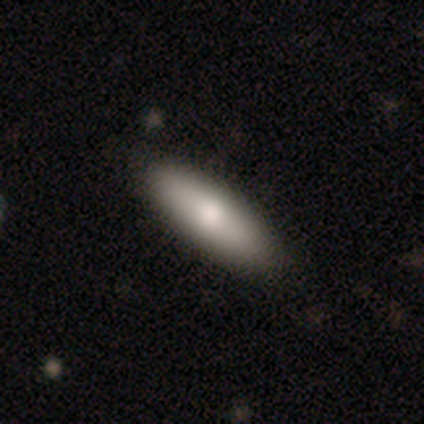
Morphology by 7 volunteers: A smooth galaxy with no disk features (86%) that is in between round and cigar-shaped (50%, tied with cigar-shaped). Merging: none (86%).